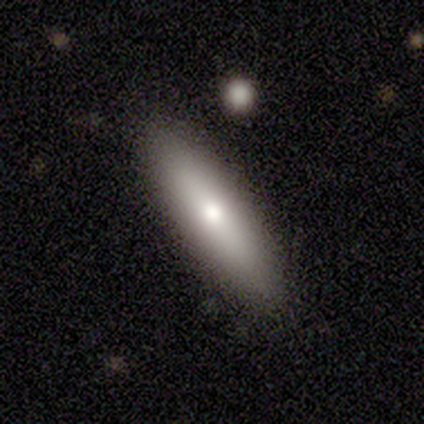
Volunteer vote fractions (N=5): Q: Smooth or featured?
A: smooth (100%)
Q: How rounded?
A: cigar-shaped (60%); runner-up: in between (40%)
Q: Merging?
A: none (100%)